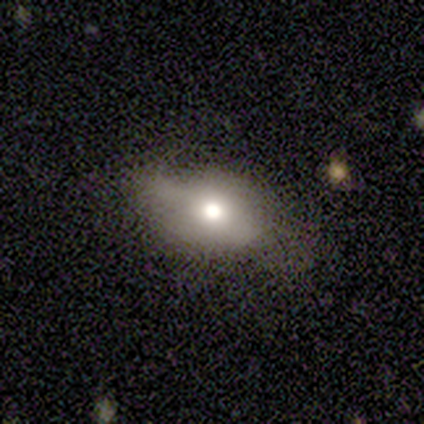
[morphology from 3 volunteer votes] This is likely a smooth galaxy (67%). How rounded: clearly in between (100%). Merging: clearly minor disturbance (100%).